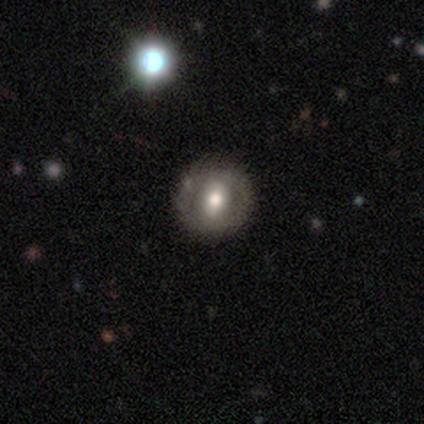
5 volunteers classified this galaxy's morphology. featured or disk 60%, smooth 20%, star or artifact 20%. Down the decision tree: edge-on disk — no (100%); bar — weak (67%); spiral arms — no (67%); bulge size — moderate (100%); merging — none (100%).